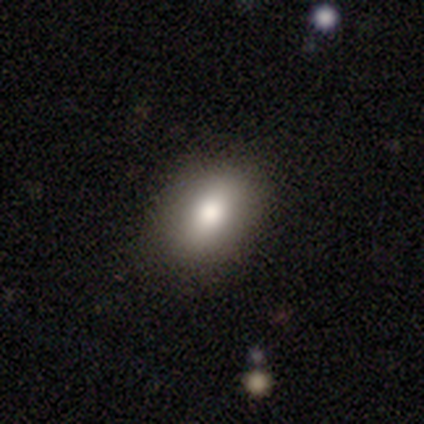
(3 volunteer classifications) smooth-or-featured: smooth: 33% (tied) | featured or disk: 33% (tied) | star or artifact: 33% (tied)
  how-rounded: round: 100% | in between: 0% | cigar-shaped: 0%
  merging: none: 100% | minor disturbance: 0% | major disturbance: 0% | merger: 0%